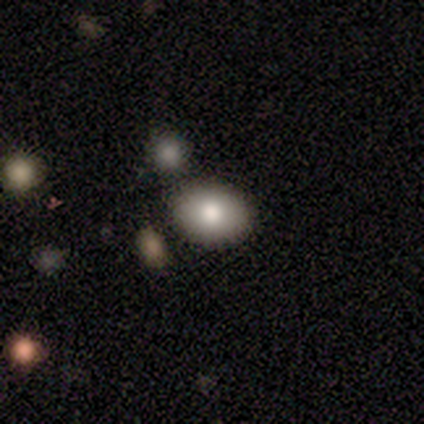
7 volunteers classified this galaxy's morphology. Overall: smooth (100%). How rounded: in between (100%). Merging: none (100%).